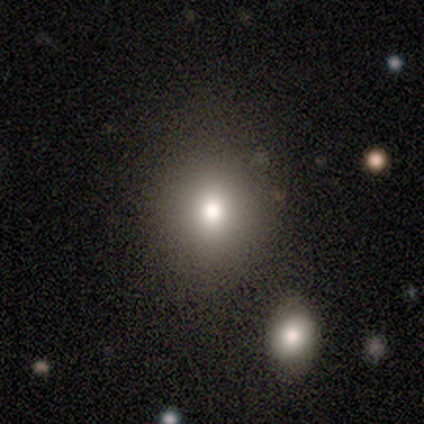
smooth-or-featured: smooth: 83% | featured or disk: 17% | star or artifact: 0%
  how-rounded: round: 60% | in between: 40% | cigar-shaped: 0%
  merging: none: 83% | minor disturbance: 17% | major disturbance: 0% | merger: 0%